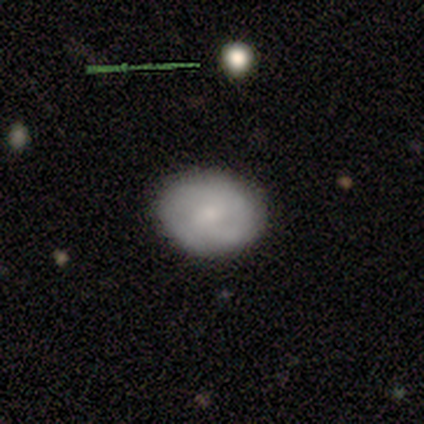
Smooth or featured? 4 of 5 (80%) said smooth. How rounded? 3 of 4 (75%) said round. Merging? 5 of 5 (100%) said none.